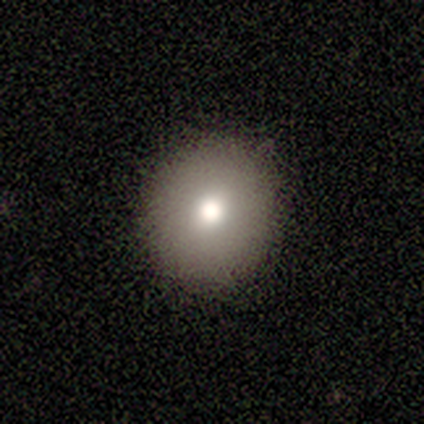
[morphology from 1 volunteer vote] Overall: smooth (100%). How rounded: round (100%). Merging: minor disturbance (100%).